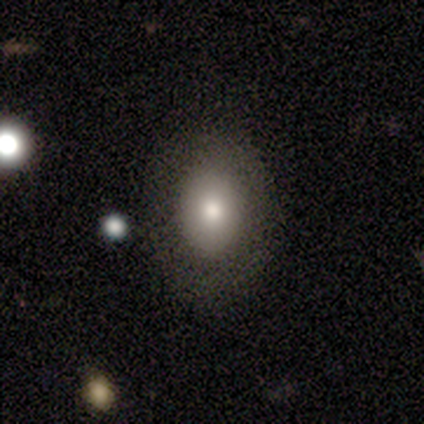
Smooth or featured: smooth — 84% (featured or disk — 8%)
How rounded: in between — 76% (round — 24%)
Merging: none — 81% (minor disturbance — 10%)